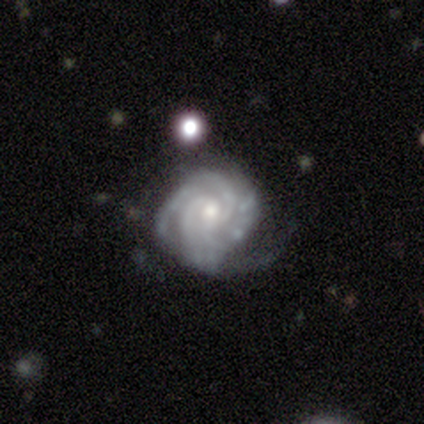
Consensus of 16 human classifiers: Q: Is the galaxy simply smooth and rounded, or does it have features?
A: featured or disk — 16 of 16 (100%).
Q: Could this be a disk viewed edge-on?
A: no — 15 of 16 (94%).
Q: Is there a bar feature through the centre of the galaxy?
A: no — 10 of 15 (67%).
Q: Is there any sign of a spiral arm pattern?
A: yes — 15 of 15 (100%).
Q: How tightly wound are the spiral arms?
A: tight — 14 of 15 (93%).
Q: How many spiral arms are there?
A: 3 — 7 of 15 (47%).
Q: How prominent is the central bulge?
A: small — 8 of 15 (53%).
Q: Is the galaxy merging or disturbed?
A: none — 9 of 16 (56%).